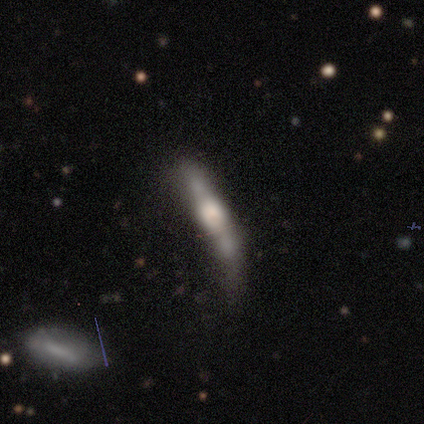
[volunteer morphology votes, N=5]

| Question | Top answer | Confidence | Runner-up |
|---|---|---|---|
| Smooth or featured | smooth | 40% | tied: featured or disk (40%) |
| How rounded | cigar-shaped | 100% | — |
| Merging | none | 75% | minor disturbance (25%) |